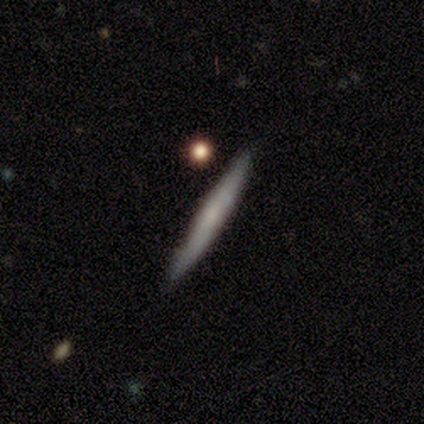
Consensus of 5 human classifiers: Smooth or featured? smooth (60%)
How rounded? cigar-shaped (67%)
Merging? none (100%)